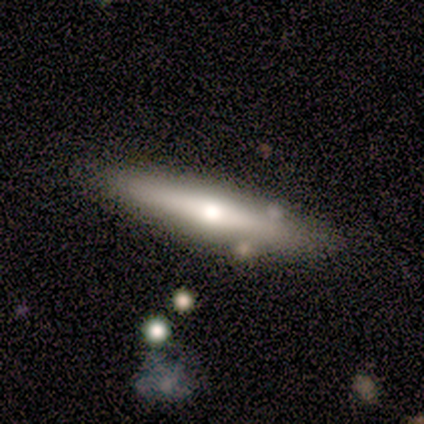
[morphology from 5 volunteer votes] Overall: smooth (60%; featured or disk 40%). How rounded: cigar-shaped (67%; in between 33%). Merging: none (60%; merger 40%).